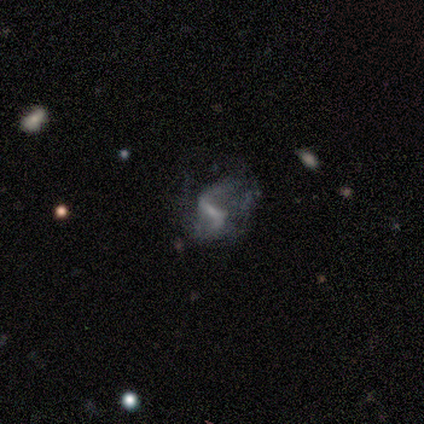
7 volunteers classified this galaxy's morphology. smooth_or_featured: featured or disk (p=0.71) [alt: smooth p=0.14]
disk_edge_on: no (p=1.00)
bar: strong (p=0.60) [alt: weak p=0.20]
has_spiral_arms: yes (p=0.80) [alt: no p=0.20]
spiral_winding: loose (p=1.00)
spiral_arm_count: 2 (p=1.00)
bulge_size: small (p=0.80) [alt: none p=0.20]
merging: major disturbance (p=0.50) [alt: none p=0.33]